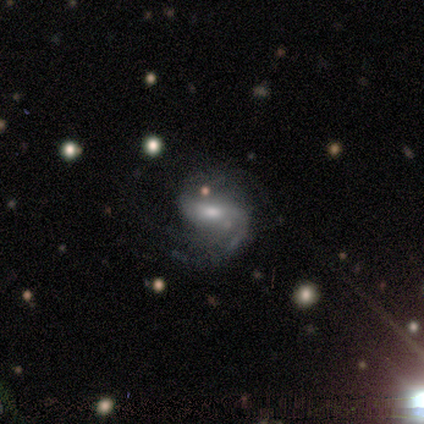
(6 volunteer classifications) smooth_or_featured: featured or disk (p=1.00)
disk_edge_on: no (p=1.00)
bar: strong (p=0.33) [tied with: weak p=0.33, no p=0.33]
has_spiral_arms: yes (p=0.67) [alt: no p=0.33]
spiral_winding: medium (p=0.50) [alt: tight p=0.25]
spiral_arm_count: 2 (p=0.75) [alt: 4 p=0.25]
bulge_size: moderate (p=0.50) [tied with: small p=0.50]
merging: none (p=0.83) [alt: minor disturbance p=0.17]